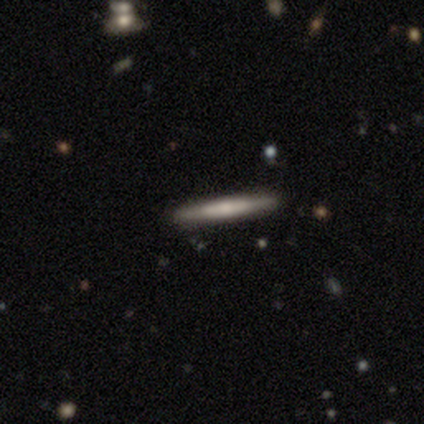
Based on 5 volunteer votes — Smooth or featured? featured or disk (60%)
Edge-on disk? yes (100%)
Edge-on bulge? rounded (67%)
Merging? none (80%)